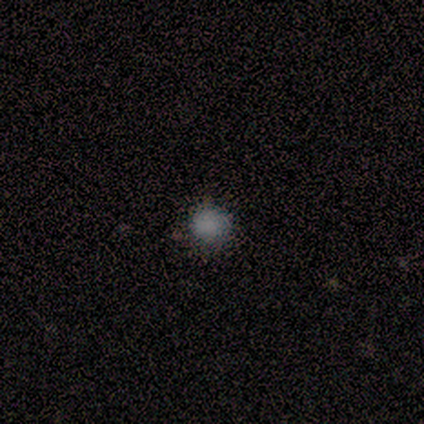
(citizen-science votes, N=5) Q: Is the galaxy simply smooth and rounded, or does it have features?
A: smooth — 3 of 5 (60%).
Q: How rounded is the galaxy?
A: round — 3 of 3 (100%).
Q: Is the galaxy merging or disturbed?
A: none — 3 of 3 (100%).